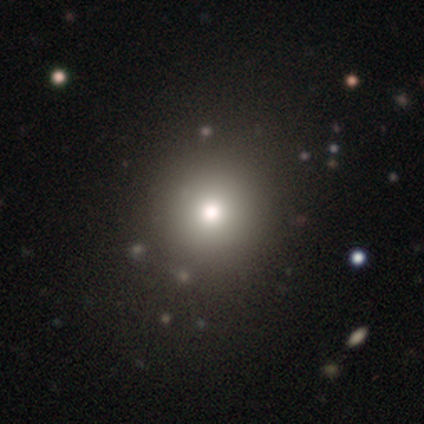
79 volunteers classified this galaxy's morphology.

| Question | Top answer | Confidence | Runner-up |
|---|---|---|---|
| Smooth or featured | smooth | 86% | star or artifact (9%) |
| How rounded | round | 94% | in between (4%) |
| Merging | none | 46% | minor disturbance (3%) |